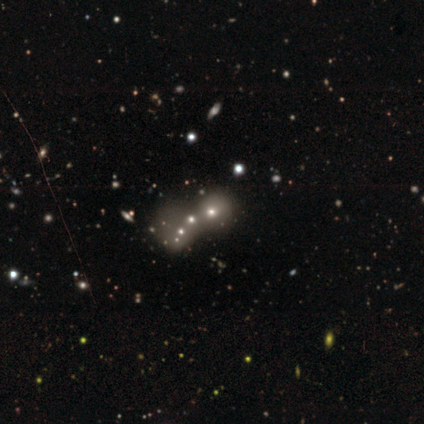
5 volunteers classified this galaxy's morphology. This appears to be a star or artifact, not a galaxy (80%).